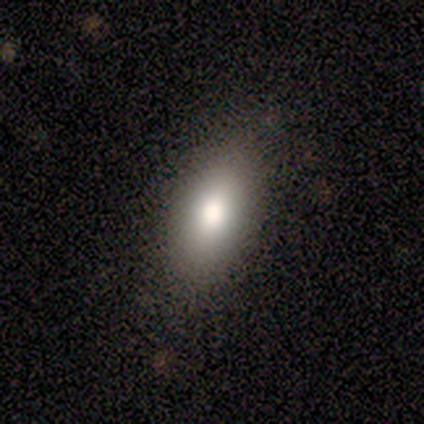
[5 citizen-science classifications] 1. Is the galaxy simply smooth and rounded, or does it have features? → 80% smooth, 20% featured or disk, 0% star or artifact.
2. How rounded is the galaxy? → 100% in between, 0% round, 0% cigar-shaped.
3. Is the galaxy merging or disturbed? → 100% none, 0% minor disturbance, 0% major disturbance, 0% merger.